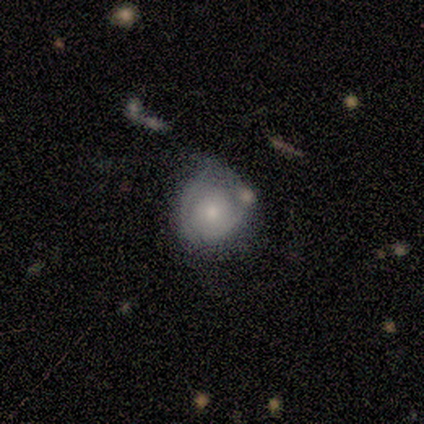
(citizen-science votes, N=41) Overall: featured or disk (63%; smooth 37%). Edge-on disk: no (100%). Bar: no (92%). Spiral arms: yes (85%). Spiral arm count: 2 (45%; can't tell 36%). Spiral winding: tight (73%). Bulge size: moderate (58%; small 42%). Merging: minor disturbance (41%; none 37%).